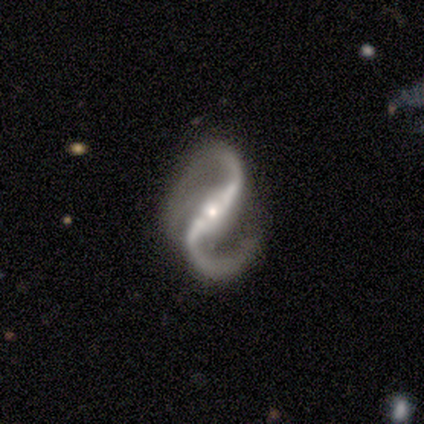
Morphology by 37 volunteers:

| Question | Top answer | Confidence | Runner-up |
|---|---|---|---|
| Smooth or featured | featured or disk | 97% | star or artifact (3%) |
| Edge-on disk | no | 94% | yes (6%) |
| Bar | strong | 74% | weak (15%) |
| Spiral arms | yes | 100% | — |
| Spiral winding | loose | 53% | medium (44%) |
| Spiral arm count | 2 | 94% | 1 (3%) |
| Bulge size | small | 56% | moderate (35%) |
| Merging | none | 72% | minor disturbance (19%) |